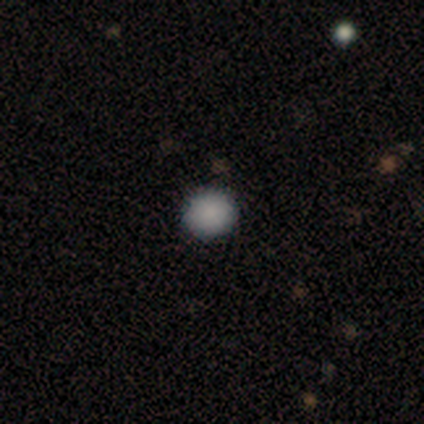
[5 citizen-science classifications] Overall: smooth (80%). How rounded: round (100%). Merging: none (100%).